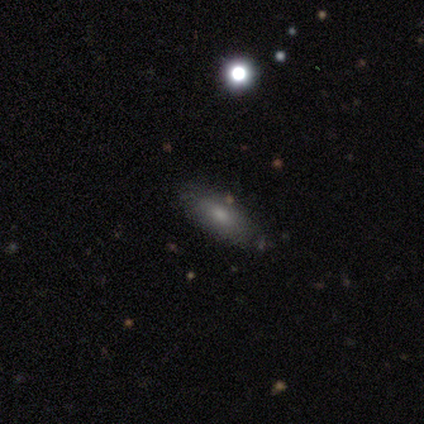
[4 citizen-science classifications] Volunteers were most divided on "how rounded": cigar-shaped: 67%, in between: 33%, round: 0%. More confident: merging — none (100%); smooth or featured — smooth (75%).